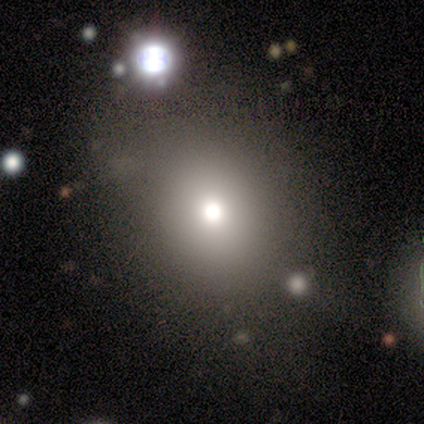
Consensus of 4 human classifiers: smooth-or-featured: smooth: 100% | featured or disk: 0% | star or artifact: 0%
  how-rounded: round: 75% | in between: 25% | cigar-shaped: 0%
  merging: none: 100% | minor disturbance: 0% | major disturbance: 0% | merger: 0%